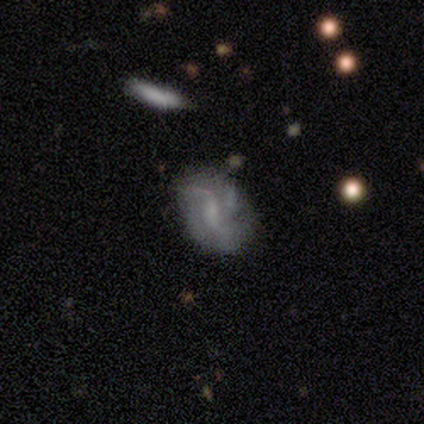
smooth-or-featured: featured or disk: 100% | smooth: 0% | star or artifact: 0%
  disk-edge-on: no: 75% | yes: 25%
    bar: no: 67% | weak: 33% | strong: 0%
    has-spiral-arms: no: 67% | yes: 33%
    bulge-size: moderate: 33% (tied) | small: 33% (tied) | none: 33% (tied) | dominant: 0% | large: 0%
  merging: minor disturbance: 50% | none: 25% | merger: 25% | major disturbance: 0%